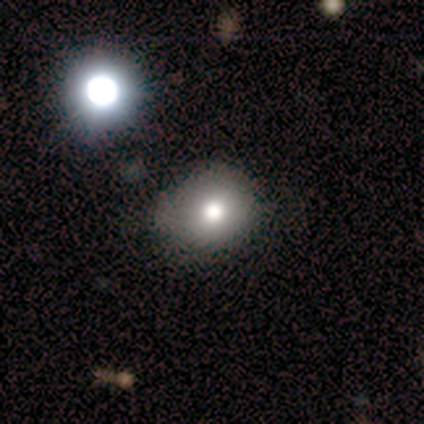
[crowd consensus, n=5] This is marginally a smooth galaxy (40%, tied with featured or disk). How rounded: clearly round (100%). Merging: clearly none (100%).